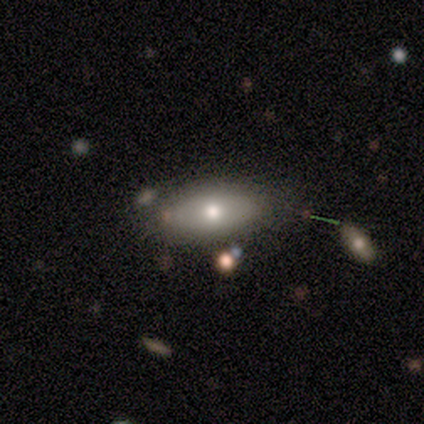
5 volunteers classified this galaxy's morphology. This is clearly a smooth galaxy (80%). How rounded: possibly in between (50%, tied with cigar-shaped). Merging: likely none (60%).